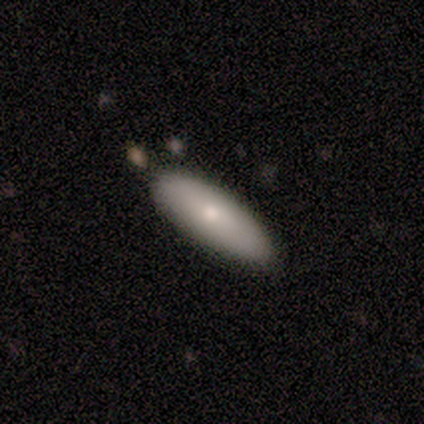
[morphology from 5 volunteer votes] This appears to be a smooth galaxy with no disk features (60%) that is in between round and cigar-shaped (100%). Merging: none (100%).